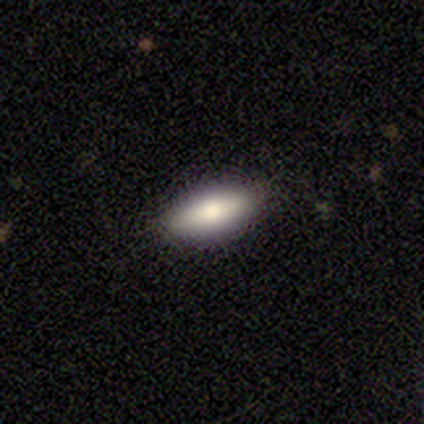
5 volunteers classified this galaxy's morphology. Smooth or featured: smooth — 80% (featured or disk — 20%)
How rounded: in between — 100%
Merging: none — 100%